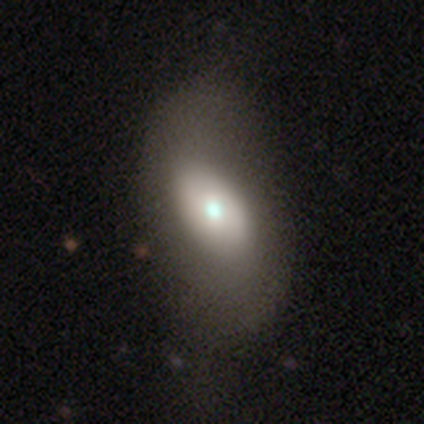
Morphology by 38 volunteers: Q: Smooth or featured?
A: smooth (47%); runner-up: featured or disk (42%)
Q: How rounded?
A: in between (100%)
Q: Merging?
A: none (32%); runner-up: major disturbance (18%)